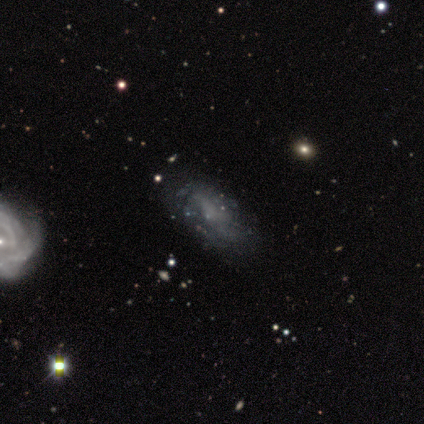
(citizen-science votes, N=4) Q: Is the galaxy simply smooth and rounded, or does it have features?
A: smooth — 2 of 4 (50%).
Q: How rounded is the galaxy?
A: in between — 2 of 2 (100%).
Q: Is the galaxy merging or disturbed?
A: none — 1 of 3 (33%, tied with minor disturbance and major disturbance).